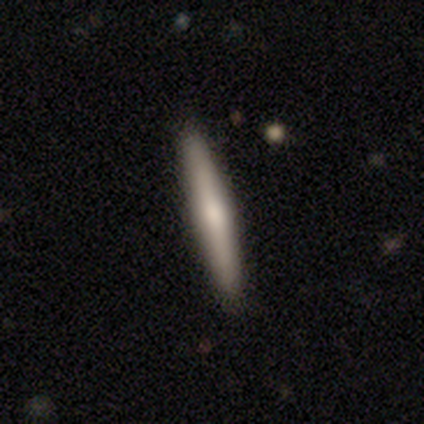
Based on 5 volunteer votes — This appears to be a featured or disk galaxy (60%) viewed edge-on (67%) with a rounded central bulge (100%). Merging: none (75%).